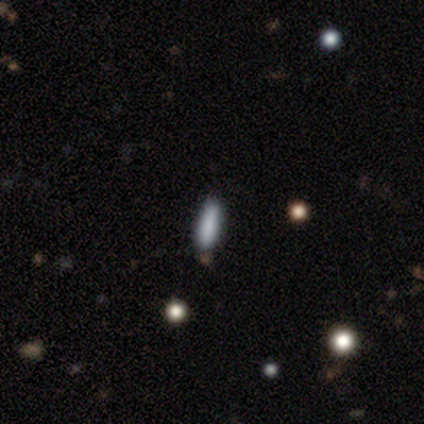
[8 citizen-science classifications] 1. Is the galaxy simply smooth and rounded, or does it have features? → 88% smooth, 12% featured or disk, 0% star or artifact.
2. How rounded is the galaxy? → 71% cigar-shaped, 29% in between, 0% round.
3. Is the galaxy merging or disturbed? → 88% none, 12% merger, 0% minor disturbance, 0% major disturbance.